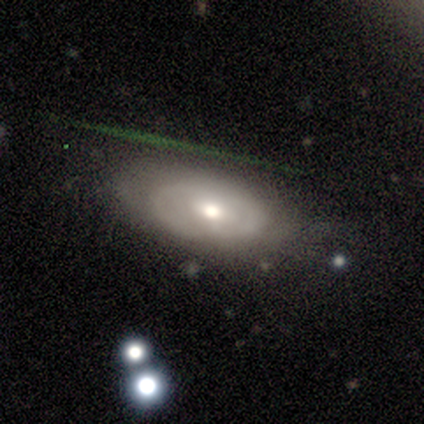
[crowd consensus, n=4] smooth_or_featured: smooth (p=0.50) [tied with: featured or disk p=0.50]
how_rounded: in between (p=1.00)
merging: minor disturbance (p=1.00)